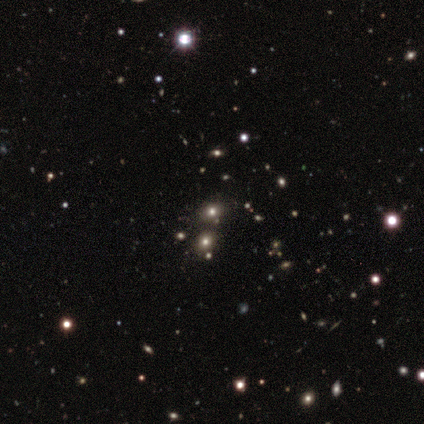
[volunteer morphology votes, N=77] smooth_or_featured: star or artifact (p=0.51) [alt: smooth p=0.42]